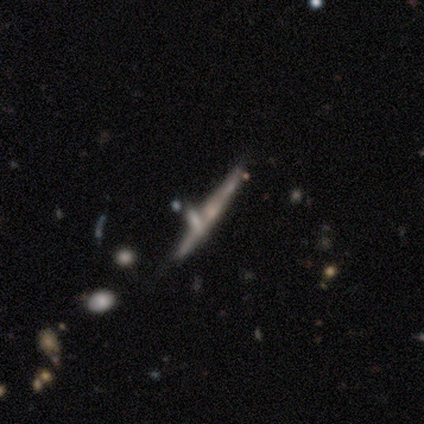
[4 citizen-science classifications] Q: Smooth or featured?
A: smooth (50%); tied with: featured or disk (50%)
Q: How rounded?
A: cigar-shaped (100%)
Q: Merging?
A: none (75%); runner-up: merger (25%)